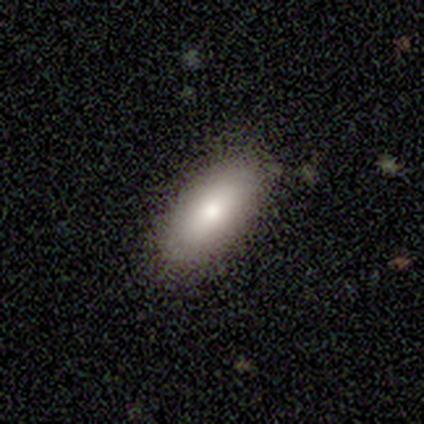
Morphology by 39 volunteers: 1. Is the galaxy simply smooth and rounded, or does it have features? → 77% smooth, 21% featured or disk, 3% star or artifact.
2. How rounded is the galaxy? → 83% in between, 13% cigar-shaped, 3% round.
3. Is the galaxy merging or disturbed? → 87% none, 13% minor disturbance, 0% major disturbance, 0% merger.